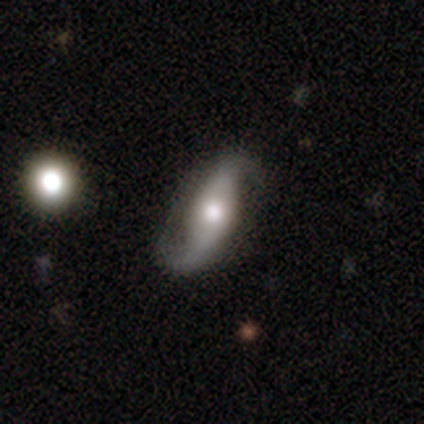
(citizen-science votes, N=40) A featured or disk galaxy (85%) with a strong bar (45%), 2 (94%) loose (87%) spiral arms (100%) and a moderate central bulge (68%).

Vote fractions:
- Smooth or featured? featured or disk: 85% / smooth: 15% / star or artifact: 0%
- Edge-on disk? no: 91% / yes: 9%
- Bar? strong: 45% / no: 39% / weak: 16%
- Spiral arms? yes: 100% / no: 0%
- Spiral winding? loose: 87% / medium: 13% / tight: 0%
- Spiral arm count? 2: 94% / 1: 3% / can't tell: 3% / 3: 0% / 4: 0% / more than 4: 0%
- Bulge size? moderate: 68% / large: 23% / small: 10% / dominant: 0% / none: 0%
- Merging? none: 78% / major disturbance: 12% / minor disturbance: 10% / merger: 0%